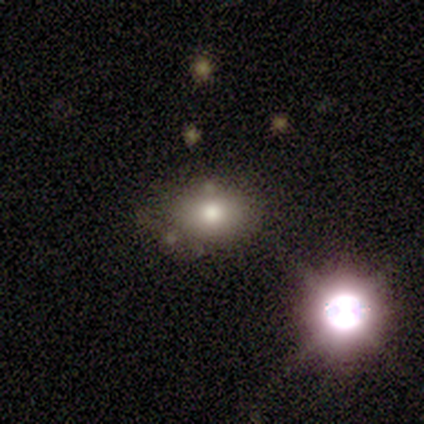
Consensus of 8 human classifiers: A smooth galaxy with no disk features (75%) that is in between round and cigar-shaped (100%). Merging: none (71%).